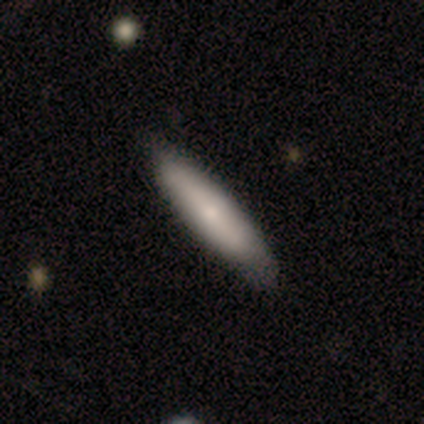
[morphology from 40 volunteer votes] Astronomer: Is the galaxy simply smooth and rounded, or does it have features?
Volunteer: smooth — 72%.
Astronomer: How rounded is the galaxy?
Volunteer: cigar-shaped — 72%.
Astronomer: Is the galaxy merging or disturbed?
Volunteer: none — 61%.